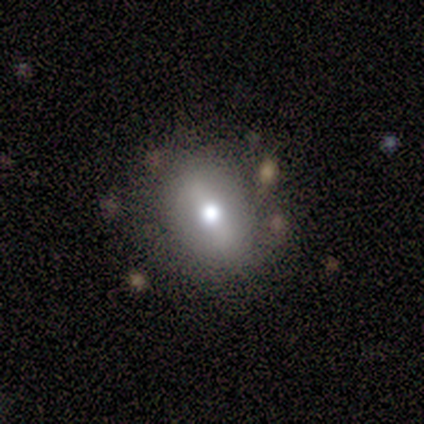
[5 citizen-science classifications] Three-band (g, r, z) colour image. It shows a smooth galaxy with no disk features (60%) that is in between round and cigar-shaped (67%). Merging: none (100%).